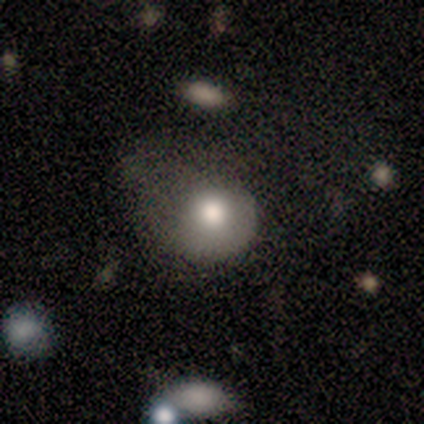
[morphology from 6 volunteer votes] A featured or disk galaxy (50%) with no bar (100%), no spiral arms (67%) and a large central bulge (67%). Merging: major disturbance (60%).